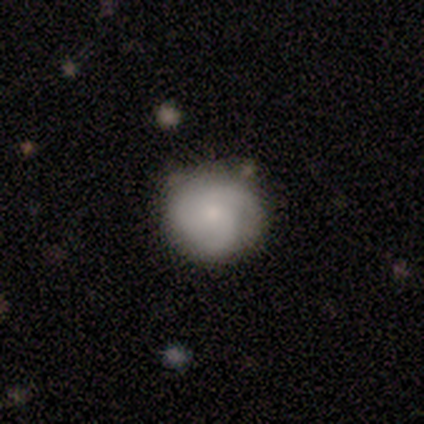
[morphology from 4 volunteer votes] A smooth galaxy with no disk features (75%) that is round (100%). Merging: none (75%).